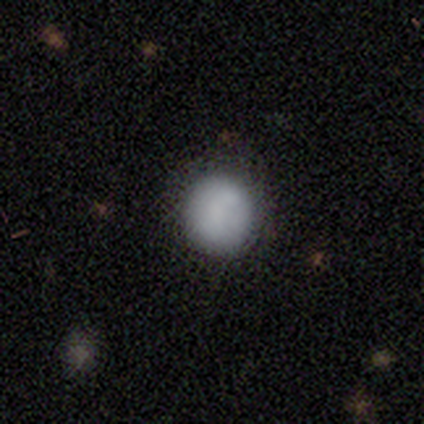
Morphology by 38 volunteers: Smooth or featured? smooth (79%)
How rounded? round (87%)
Merging? none (78%)